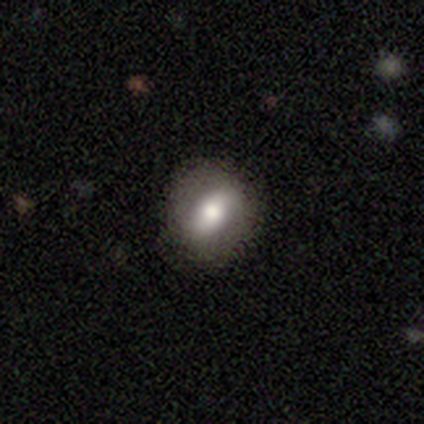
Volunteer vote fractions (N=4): smooth_or_featured: smooth (p=0.75) [alt: featured or disk p=0.25]
how_rounded: in between (p=0.67) [alt: round p=0.33]
merging: none (p=0.75) [alt: minor disturbance p=0.25]